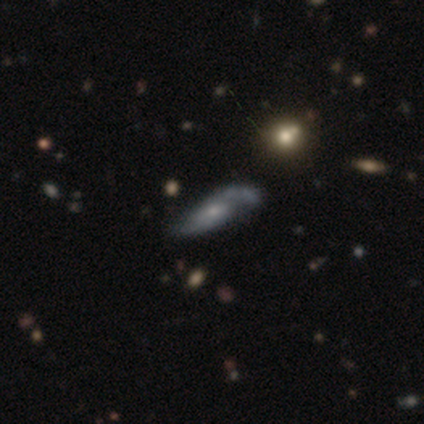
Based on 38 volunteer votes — This appears to be a featured or disk galaxy (82%) with no bar (74%), 2 (60%) medium (55%) spiral arms (87%) and a small central bulge (61%). Merging: none (51%).